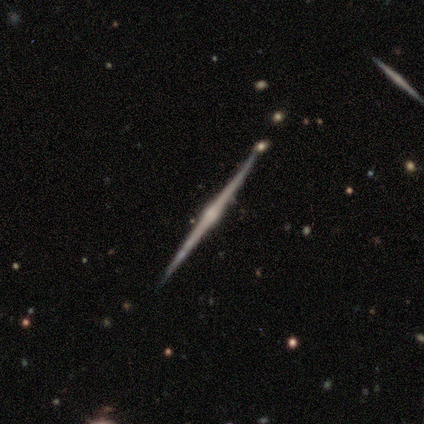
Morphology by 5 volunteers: featured or disk 100%, smooth 0%, star or artifact 0%. Down the decision tree: edge-on disk — yes (100%); edge-on bulge — rounded (80%); merging — none (100%).